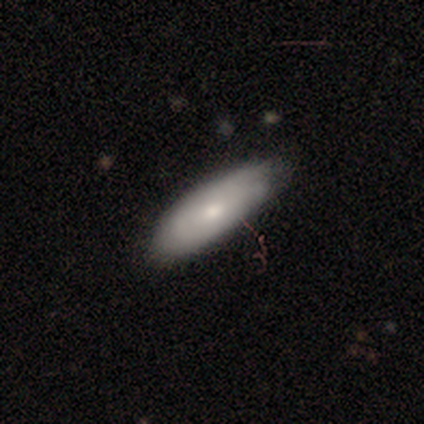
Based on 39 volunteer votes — Smooth or featured: smooth — 64% (featured or disk — 36%)
How rounded: in between — 72% (cigar-shaped — 28%)
Merging: none — 51% (minor disturbance — 21%)